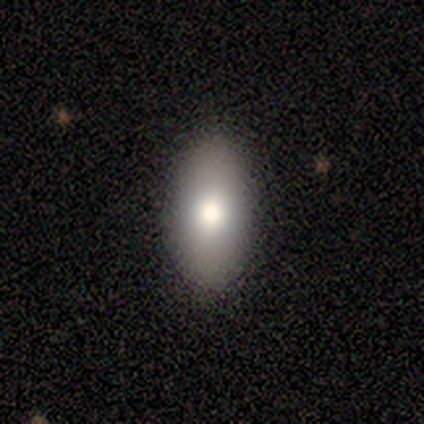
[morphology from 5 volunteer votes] smooth_or_featured: smooth (p=1.00)
how_rounded: in between (p=1.00)
merging: none (p=0.80) [alt: minor disturbance p=0.20]